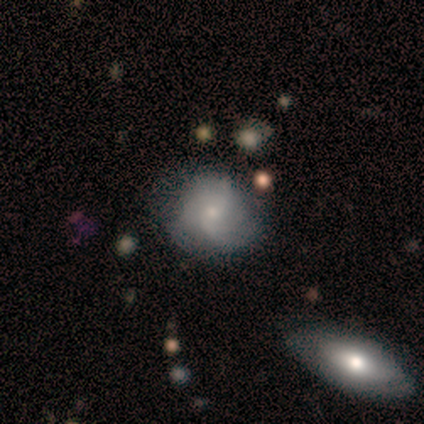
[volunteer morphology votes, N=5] A smooth galaxy with no disk features (60%) that is round (100%).

Vote fractions:
- Smooth or featured? smooth: 60% / featured or disk: 20% / star or artifact: 20%
- How rounded? round: 100% / in between: 0% / cigar-shaped: 0%
- Merging? none: 100% / minor disturbance: 0% / major disturbance: 0% / merger: 0%